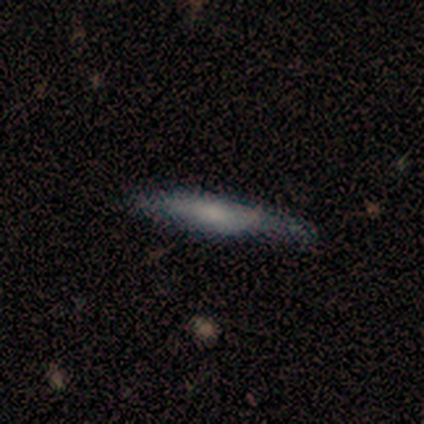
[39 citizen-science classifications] This is possibly a smooth galaxy (59%). How rounded: clearly cigar-shaped (91%). Merging: possibly none (55%).